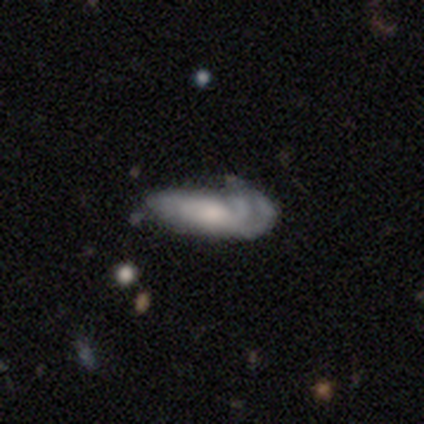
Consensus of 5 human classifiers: Morphology: type=featured or disk (80%); edge-on=yes (50%, tied with no); edge-on bulge=none (50%, tied with rounded); merging=major disturbance (60%).